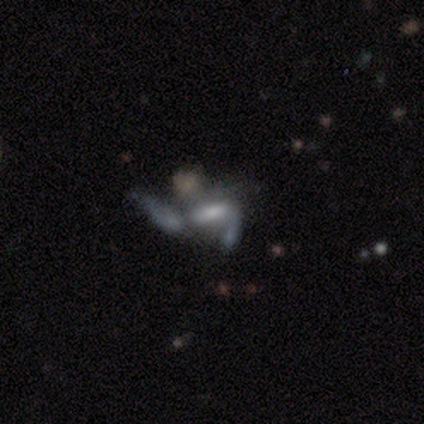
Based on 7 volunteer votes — Smooth or featured: featured or disk — 71% (smooth — 14%)
Edge-on disk: no — 100%
Bar: no — 60% (strong — 20%)
Spiral arms: yes — 60% (no — 40%)
Spiral winding: loose — 100%
Spiral arm count: 1 — 67% (2 — 33%)
Bulge size: moderate — 40% (tied with none — 40%)
Merging: major disturbance — 50% (merger — 33%)